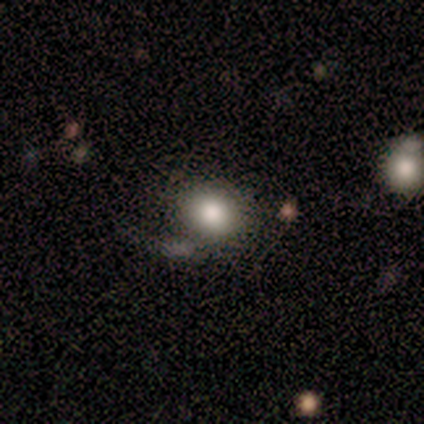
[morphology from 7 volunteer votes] Smooth or featured? 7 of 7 (100%) said smooth. How rounded? 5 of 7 (71%) said round. Merging? 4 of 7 (57%) said major disturbance.